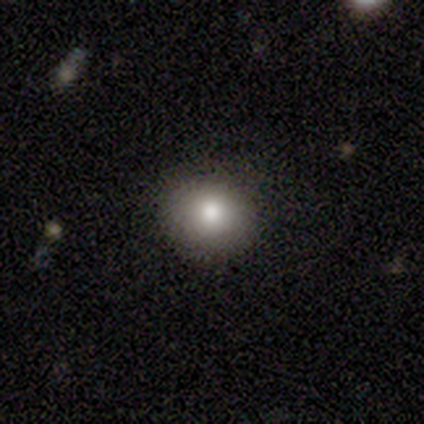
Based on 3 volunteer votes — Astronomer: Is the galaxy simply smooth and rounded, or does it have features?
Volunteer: smooth — 67%.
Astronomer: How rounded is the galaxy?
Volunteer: round — 100%.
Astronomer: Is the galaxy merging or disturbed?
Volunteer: none — 100%.